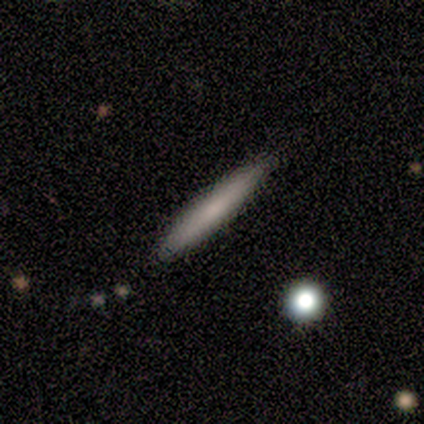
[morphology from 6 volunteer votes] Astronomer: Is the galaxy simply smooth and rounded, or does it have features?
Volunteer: smooth — 67%.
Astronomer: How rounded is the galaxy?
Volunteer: cigar-shaped — 100%.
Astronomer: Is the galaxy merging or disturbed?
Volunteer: none — 60%.